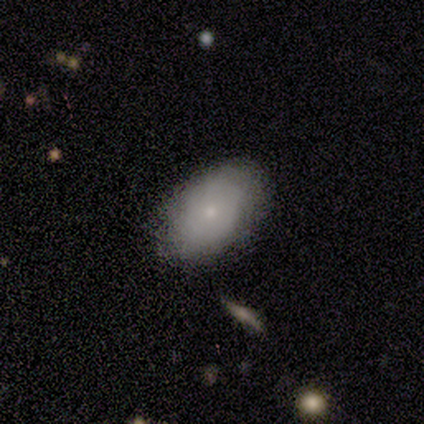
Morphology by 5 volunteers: type=featured or disk (80%); edge-on=no (100%); bar=no (100%); spiral arms=no (75%); bulge=small (100%); merging=none (100%).